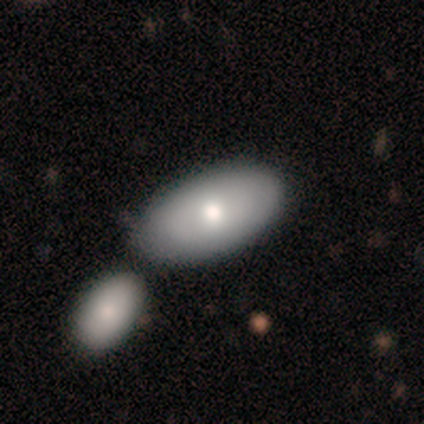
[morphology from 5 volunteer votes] This appears to be a smooth galaxy with no disk features (80%) that is in between round and cigar-shaped (100%). Merging: none (40%, tied with merger).